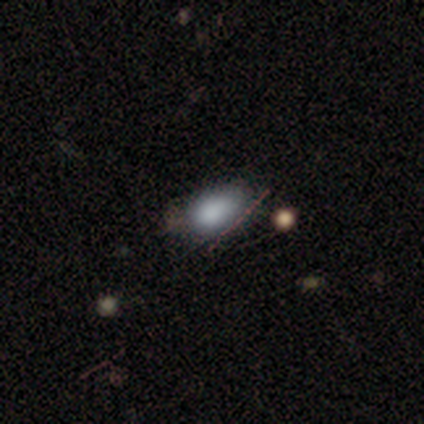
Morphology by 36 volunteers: smooth-or-featured: smooth: 75% | featured or disk: 14% | star or artifact: 11%
  how-rounded: in between: 89% | round: 11% | cigar-shaped: 0%
  merging: none: 72% | minor disturbance: 25% | major disturbance: 3% | merger: 0%